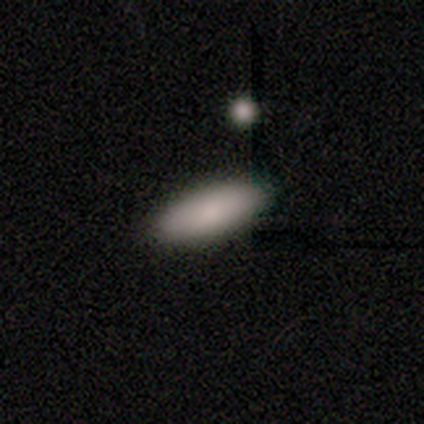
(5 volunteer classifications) A smooth galaxy with no disk features (100%) that is in between round and cigar-shaped (80%). Merging: none (100%).